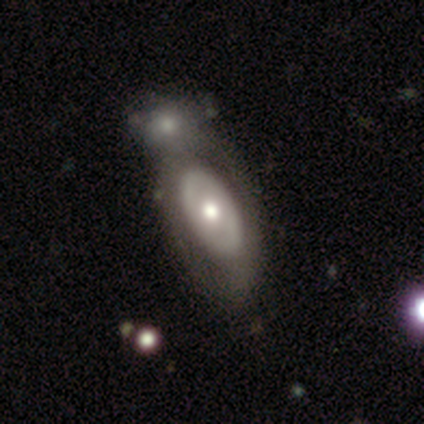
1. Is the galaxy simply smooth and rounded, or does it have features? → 50% smooth (tied), 50% featured or disk (tied), 0% star or artifact.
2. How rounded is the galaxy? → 100% in between, 0% round, 0% cigar-shaped.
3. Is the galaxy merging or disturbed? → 100% merger, 0% none, 0% minor disturbance, 0% major disturbance.